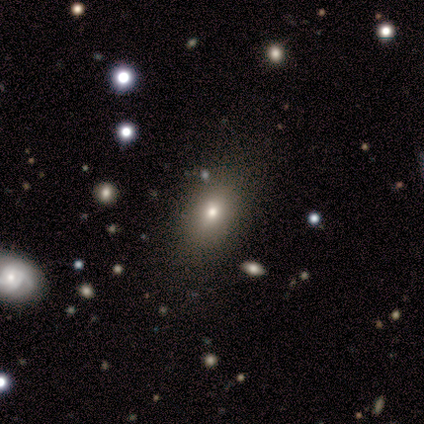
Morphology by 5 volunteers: A smooth galaxy with no disk features (80%) that is in between round and cigar-shaped (100%).

Vote fractions:
- Smooth or featured? smooth: 80% / star or artifact: 20% / featured or disk: 0%
- How rounded? in between: 100% / round: 0% / cigar-shaped: 0%
- Merging? none: 50% (tied) / minor disturbance: 50% (tied) / major disturbance: 0% / merger: 0%